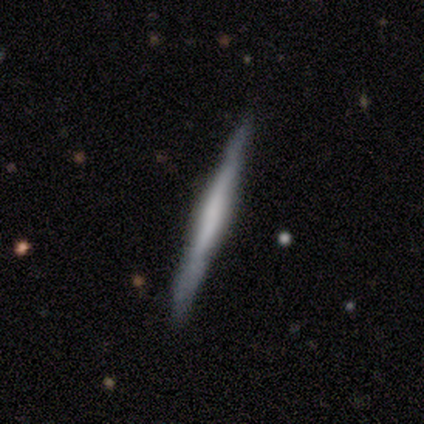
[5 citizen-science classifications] Smooth or featured? smooth (60%)
How rounded? cigar-shaped (100%)
Merging? minor disturbance (80%)